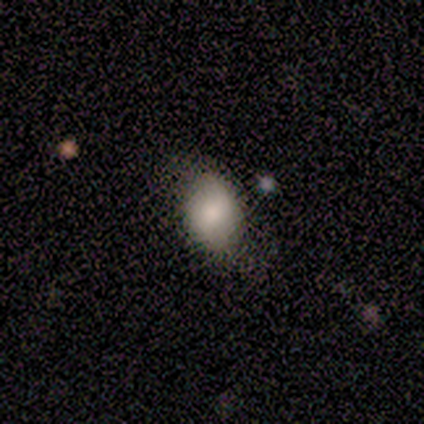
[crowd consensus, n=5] Q: Smooth or featured?
A: smooth (80%); runner-up: star or artifact (20%)
Q: How rounded?
A: in between (100%)
Q: Merging?
A: minor disturbance (50%); runner-up: none (25%)